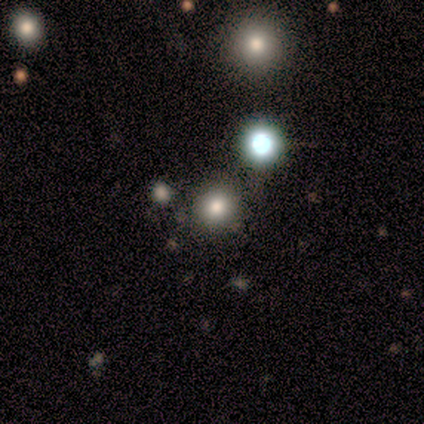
Smooth or featured? smooth (60%)
How rounded? round (100%)
Merging? none (75%)